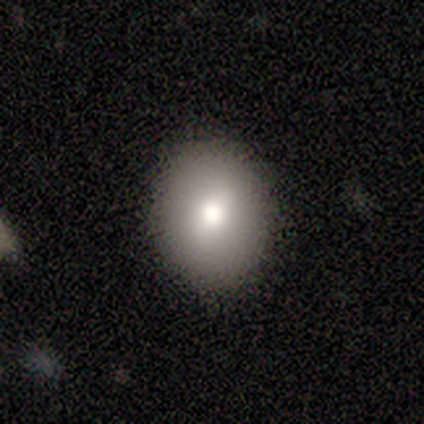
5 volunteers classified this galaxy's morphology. smooth_or_featured: smooth (p=1.00)
how_rounded: round (p=0.40) [tied with: in between p=0.40]
merging: none (p=0.80) [alt: minor disturbance p=0.20]